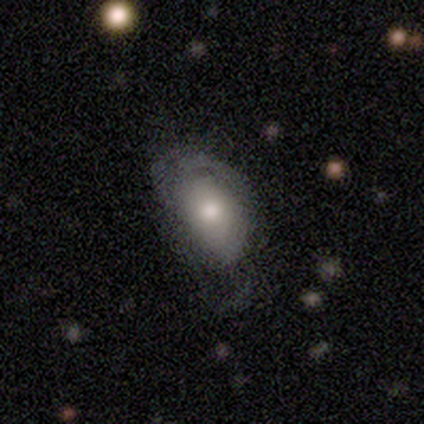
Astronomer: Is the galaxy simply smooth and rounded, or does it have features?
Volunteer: smooth — 60% (runner-up: featured or disk, 40%).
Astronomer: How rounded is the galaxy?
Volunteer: in between — 67%.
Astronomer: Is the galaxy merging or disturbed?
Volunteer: minor disturbance — 80%.